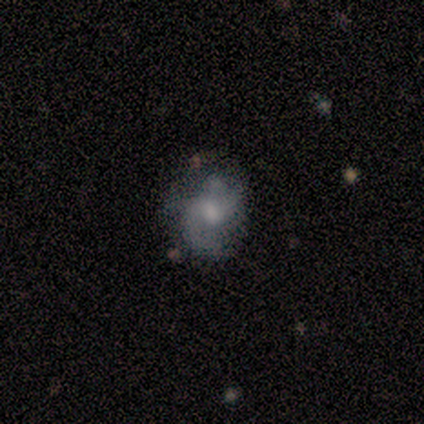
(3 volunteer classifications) Smooth or featured? featured or disk (100%)
Edge-on disk? no (100%)
Bar? no (67%)
Spiral arms? yes (100%)
Spiral winding? medium (67%)
Spiral arm count? 2 (100%)
Bulge size? moderate (67%)
Merging? none (67%)